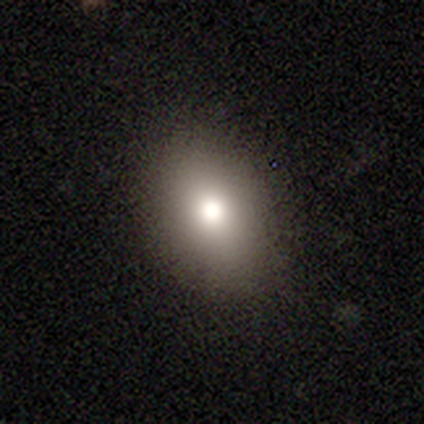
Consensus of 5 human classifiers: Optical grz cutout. It shows a smooth galaxy with no disk features (80%) that is round (50%, tied with in between). Merging: none (100%).